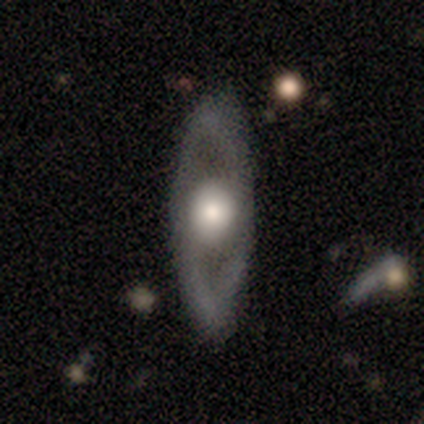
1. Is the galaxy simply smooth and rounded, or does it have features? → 80% featured or disk, 20% smooth, 0% star or artifact.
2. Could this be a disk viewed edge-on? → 100% no, 0% yes.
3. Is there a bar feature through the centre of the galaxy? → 75% no, 25% strong, 0% weak.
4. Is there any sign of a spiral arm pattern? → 75% no, 25% yes.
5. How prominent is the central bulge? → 50% moderate, 25% dominant, 25% large, 0% small, 0% none.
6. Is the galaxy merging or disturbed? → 100% none, 0% minor disturbance, 0% major disturbance, 0% merger.